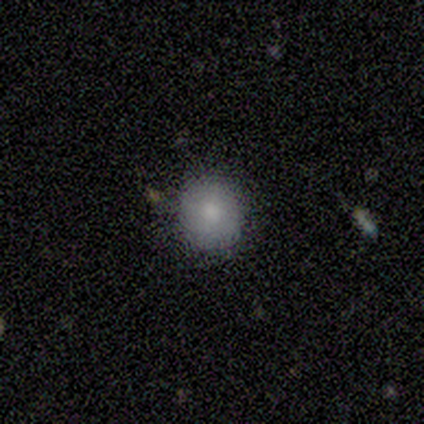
This is clearly a smooth galaxy (80%). How rounded: clearly round (100%). Merging: clearly none (80%).